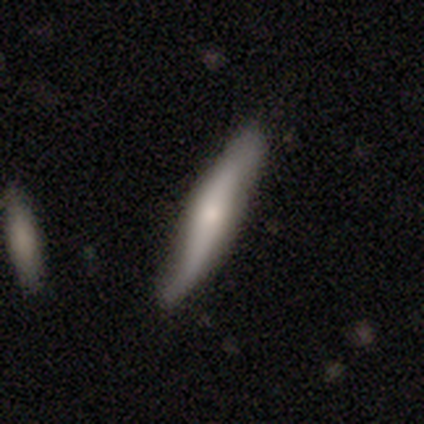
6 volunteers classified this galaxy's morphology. Smooth or featured: smooth — 83% (featured or disk — 17%)
How rounded: cigar-shaped — 100%
Merging: none — 83% (minor disturbance — 17%)